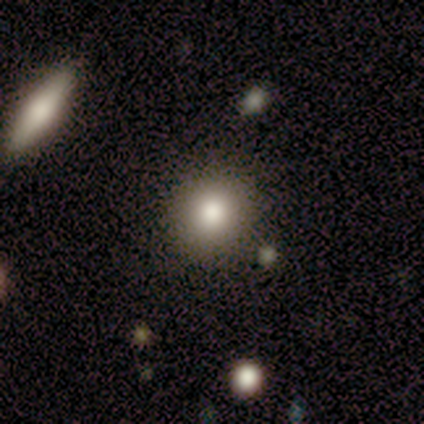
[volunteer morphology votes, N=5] smooth-or-featured: smooth: 100% | featured or disk: 0% | star or artifact: 0%
  how-rounded: round: 100% | in between: 0% | cigar-shaped: 0%
  merging: none: 100% | minor disturbance: 0% | major disturbance: 0% | merger: 0%